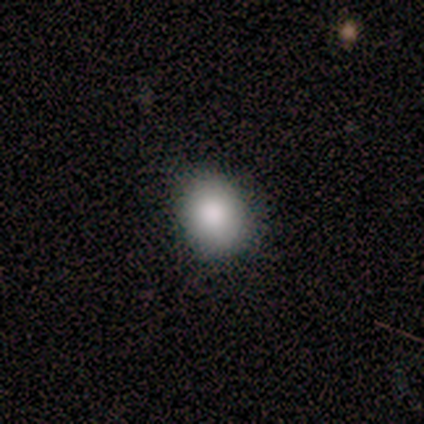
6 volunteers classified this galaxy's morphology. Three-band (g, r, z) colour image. It shows a smooth galaxy with no disk features (83%) that is round (60%). Merging: none (100%).